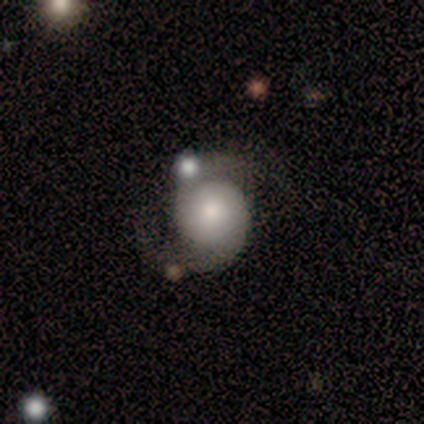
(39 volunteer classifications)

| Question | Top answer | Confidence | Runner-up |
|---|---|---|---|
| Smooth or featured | featured or disk | 72% | smooth (26%) |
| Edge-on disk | no | 96% | yes (4%) |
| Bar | no | 81% | weak (19%) |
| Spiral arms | yes | 89% | no (11%) |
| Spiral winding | medium | 62% | loose (29%) |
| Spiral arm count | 2 | 88% | 1 (4%) |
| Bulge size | moderate | 44% | small (37%) |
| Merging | none | 50% | minor disturbance (21%) |